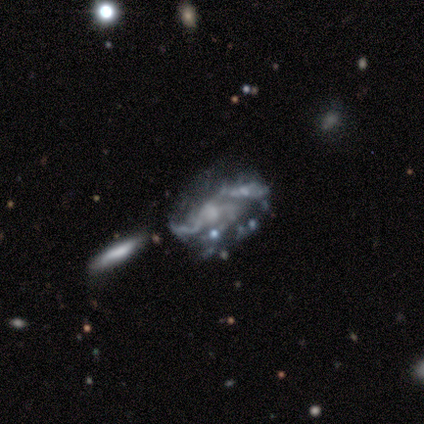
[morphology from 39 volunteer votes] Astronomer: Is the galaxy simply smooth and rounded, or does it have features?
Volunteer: featured or disk — 85%.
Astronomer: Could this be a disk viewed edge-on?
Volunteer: no — 97%.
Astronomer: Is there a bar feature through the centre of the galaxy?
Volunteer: no — 72%.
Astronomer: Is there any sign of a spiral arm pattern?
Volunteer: yes — 75%.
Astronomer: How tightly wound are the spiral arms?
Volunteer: loose — 54% (runner-up: medium, 42%).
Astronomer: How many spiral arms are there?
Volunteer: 2 — 38%, tied with 3 at 38%.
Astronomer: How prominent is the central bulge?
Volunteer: small — 38%, tied with none at 38%.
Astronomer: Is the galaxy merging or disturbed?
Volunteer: none — 36% (runner-up: major disturbance, 30%).